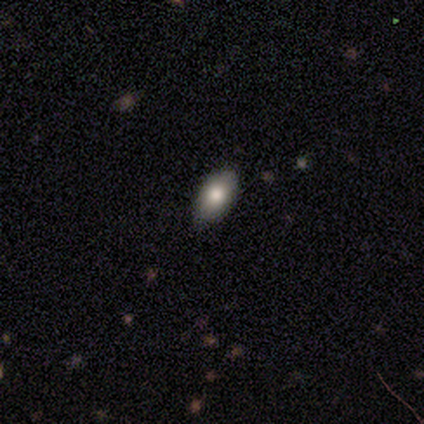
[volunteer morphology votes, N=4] smooth_or_featured: smooth (p=0.75) [alt: featured or disk p=0.25]
how_rounded: in between (p=1.00)
merging: none (p=0.75) [alt: minor disturbance p=0.25]